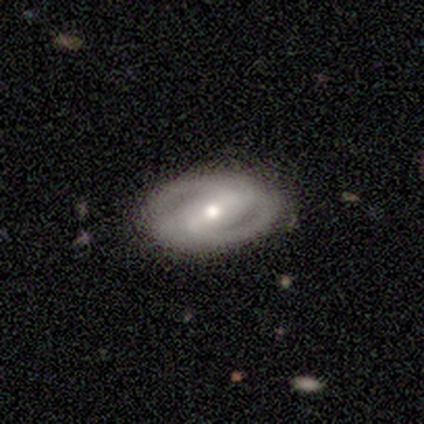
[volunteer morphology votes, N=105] smooth_or_featured: featured or disk (p=0.86) [alt: smooth p=0.11]
disk_edge_on: no (p=0.97) [alt: yes p=0.03]
bar: strong (p=0.59) [alt: weak p=0.25]
has_spiral_arms: yes (p=0.82) [alt: no p=0.18]
spiral_winding: tight (p=0.54) [alt: medium p=0.37]
spiral_arm_count: 2 (p=0.89) [alt: can't tell p=0.08]
bulge_size: moderate (p=0.66) [alt: small p=0.25]
merging: none (p=0.76) [alt: minor disturbance p=0.21]